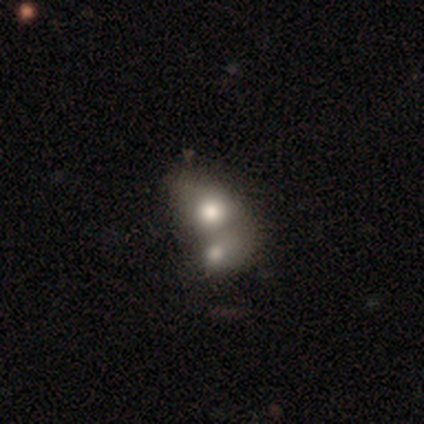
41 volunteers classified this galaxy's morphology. Smooth or featured? 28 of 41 (68%) said smooth. How rounded? 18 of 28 (64%) said in between. Merging? 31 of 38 (82%) said merger.